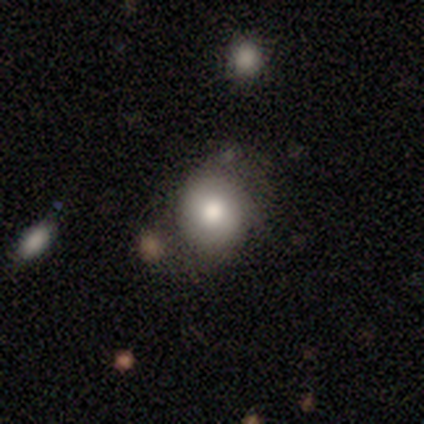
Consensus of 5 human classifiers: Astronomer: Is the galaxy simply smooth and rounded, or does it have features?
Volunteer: smooth — 80%.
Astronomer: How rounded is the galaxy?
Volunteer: round — 75%.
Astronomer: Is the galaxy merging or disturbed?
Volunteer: minor disturbance — 60% (runner-up: none, 40%).